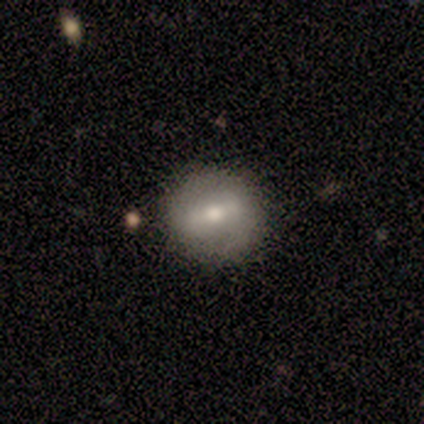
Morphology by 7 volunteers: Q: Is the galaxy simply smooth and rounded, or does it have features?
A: featured or disk — 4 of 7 (57%).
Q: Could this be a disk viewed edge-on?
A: no — 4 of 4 (100%).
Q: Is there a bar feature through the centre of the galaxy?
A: weak — 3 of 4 (75%).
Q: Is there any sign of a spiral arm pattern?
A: no — 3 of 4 (75%).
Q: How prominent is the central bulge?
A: moderate — 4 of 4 (100%).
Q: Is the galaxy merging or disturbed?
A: none — 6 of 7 (86%).